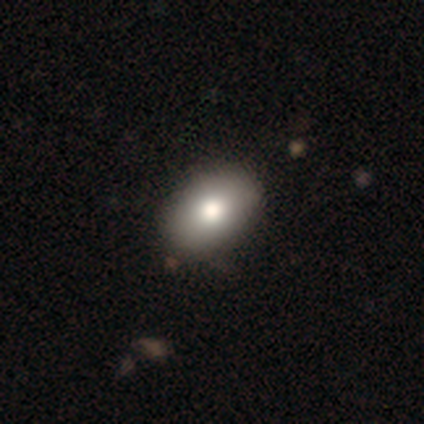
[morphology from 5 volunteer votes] type=smooth (100%); roundness=in between (60%); merging=none (80%).